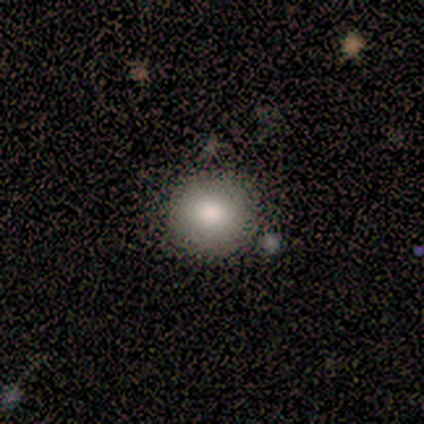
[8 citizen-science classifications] Smooth or featured? 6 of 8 (75%) said smooth. How rounded? 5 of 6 (83%) said round. Merging? 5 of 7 (71%) said none.